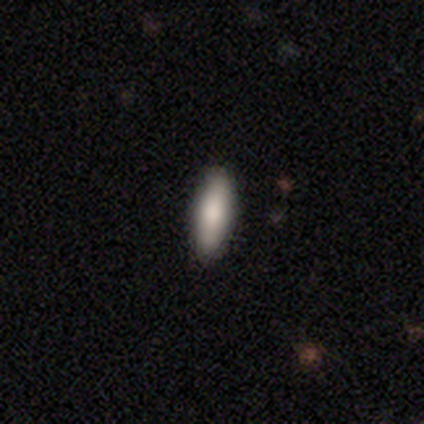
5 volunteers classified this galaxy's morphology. This is clearly a smooth galaxy (80%). How rounded: possibly in between (50%, tied with cigar-shaped). Merging: clearly none (100%).